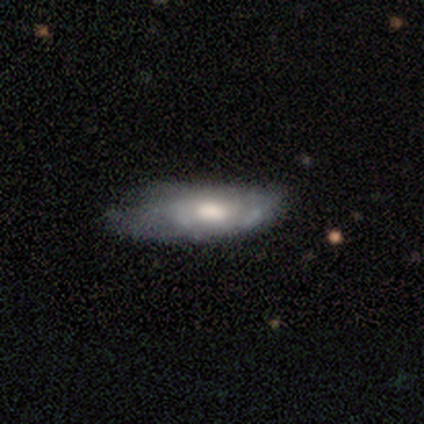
Q: Smooth or featured?
A: smooth (60%); runner-up: featured or disk (40%)
Q: How rounded?
A: in between (67%); runner-up: cigar-shaped (33%)
Q: Merging?
A: minor disturbance (80%); runner-up: none (20%)